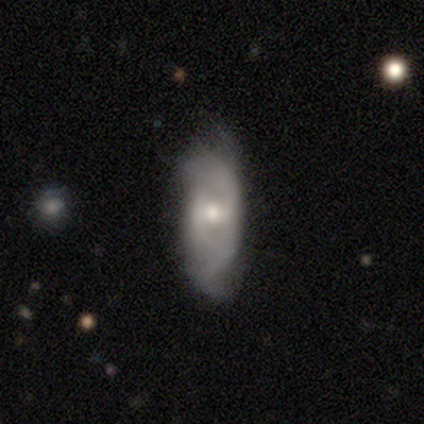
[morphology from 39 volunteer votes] This appears to be a featured or disk galaxy (49%) with a weak bar (53%), 2 (53%) medium (47%) spiral arms (88%) and a moderate central bulge (59%). Merging: none (46%).